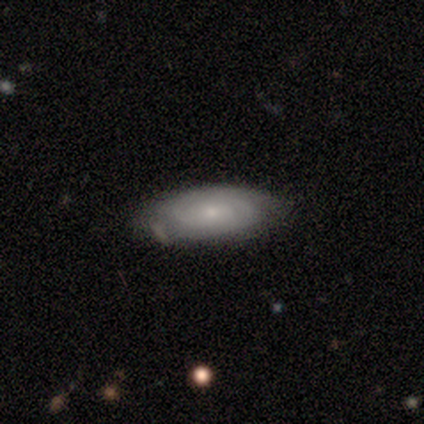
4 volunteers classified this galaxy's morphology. Volunteers were most divided on "smooth or featured": featured or disk: 50%, smooth: 25%, star or artifact: 25%. More confident: edge-on disk — no (100%); bar — no (100%); spiral arms — yes (100%); spiral winding — tight (100%); spiral arm count — 2 (100%); bulge size — small (100%); merging — none (67%).